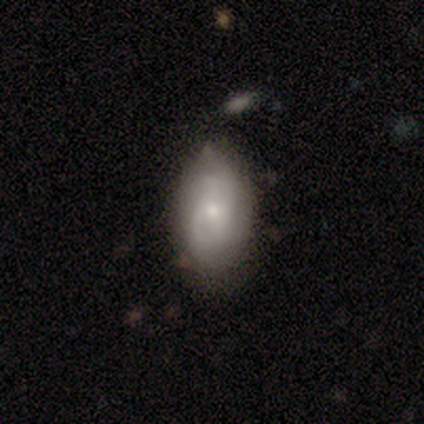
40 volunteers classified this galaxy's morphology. Smooth or featured: featured or disk — 57% (smooth — 38%)
Edge-on disk: no — 91% (yes — 9%)
Bar: no — 86% (weak — 14%)
Spiral arms: yes — 86% (no — 14%)
Spiral winding: tight — 50% (medium — 28%)
Spiral arm count: can't tell — 44% (2 — 39%)
Bulge size: small — 57% (moderate — 33%)
Merging: none — 53% (minor disturbance — 45%)